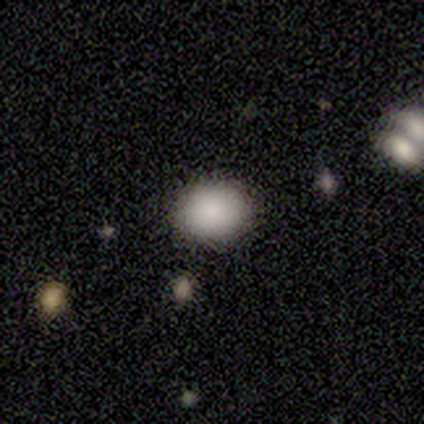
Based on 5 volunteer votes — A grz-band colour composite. It shows a smooth galaxy with no disk features (100%) that is round (80%). Merging: none (80%).